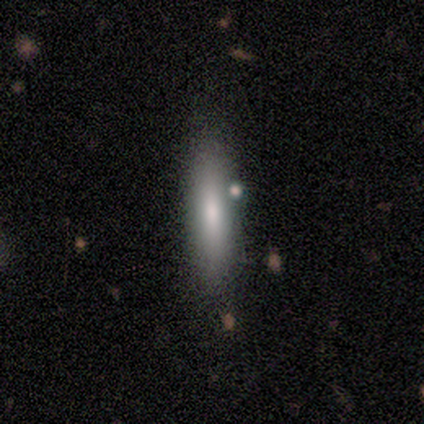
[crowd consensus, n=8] Morphology: type=smooth (100%); roundness=cigar-shaped (88%); merging=none (100%).